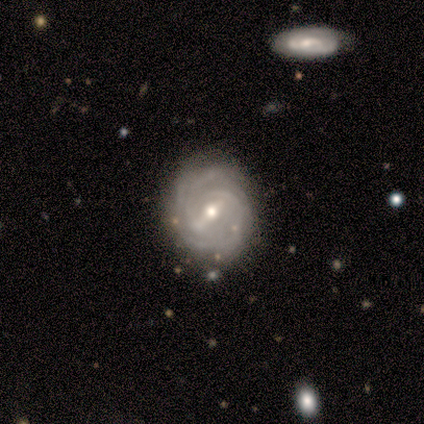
A featured or disk galaxy (60%) with a strong bar (100%), 2 (67%) tight (100%) spiral arms (100%) and a moderate central bulge (67%).

Vote fractions:
- Smooth or featured? featured or disk: 60% / smooth: 20% / star or artifact: 20%
- Edge-on disk? no: 100% / yes: 0%
- Bar? strong: 100% / weak: 0% / no: 0%
- Spiral arms? yes: 100% / no: 0%
- Spiral winding? tight: 100% / medium: 0% / loose: 0%
- Spiral arm count? 2: 67% / 3: 33% / 1: 0% / 4: 0% / more than 4: 0% / can't tell: 0%
- Bulge size? moderate: 67% / small: 33% / dominant: 0% / large: 0% / none: 0%
- Merging? none: 50% (tied) / minor disturbance: 50% (tied) / major disturbance: 0% / merger: 0%